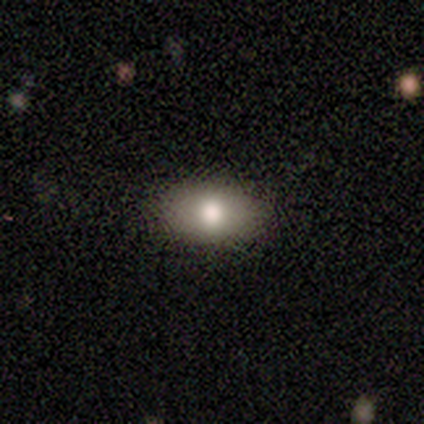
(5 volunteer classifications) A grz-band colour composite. It shows a smooth galaxy with no disk features (100%) that is in between round and cigar-shaped (80%). Merging: none (100%).